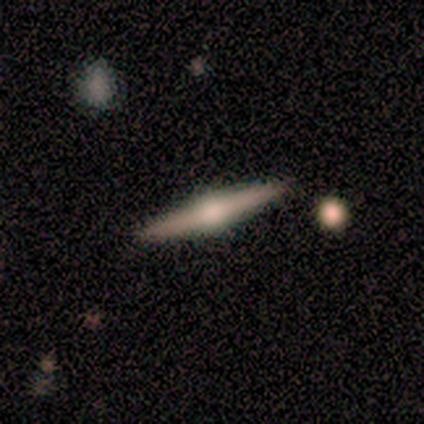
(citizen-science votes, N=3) Smooth or featured?
  - featured or disk: 67% *
  - smooth: 33%
  - star or artifact: 0%
Edge-on disk?
  - yes: 100% *
  - no: 0%
Edge-on bulge?
  - rounded: 100% *
  - boxy: 0%
  - none: 0%
Merging?
  - none: 100% *
  - minor disturbance: 0%
  - major disturbance: 0%
  - merger: 0%